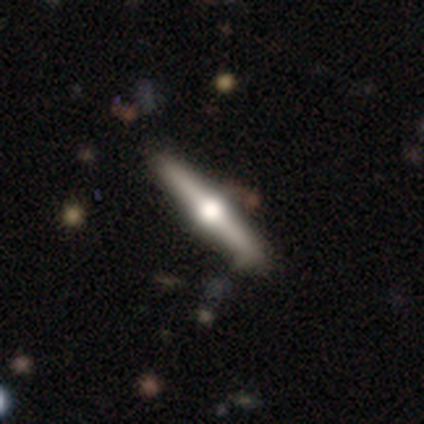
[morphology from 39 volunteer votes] Smooth or featured?
  - featured or disk: 74% *
  - smooth: 18%
  - star or artifact: 8%
Edge-on disk?
  - yes: 100% *
  - no: 0%
Edge-on bulge?
  - rounded: 97% *
  - boxy: 3%
  - none: 0%
Merging?
  - none: 81% *
  - minor disturbance: 14%
  - major disturbance: 6%
  - merger: 0%